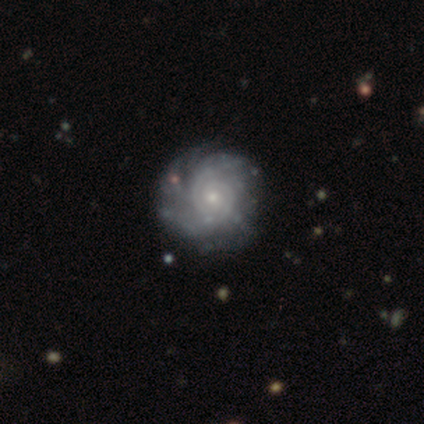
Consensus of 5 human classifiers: Volunteers were most divided on "spiral winding": tight: 75%, medium: 25%, loose: 0%. More confident: edge-on disk — no (100%); bar — no (100%); spiral arms — yes (100%); merging — none (100%); smooth or featured — featured or disk (80%); spiral arm count — can't tell (75%); bulge size — small (75%).